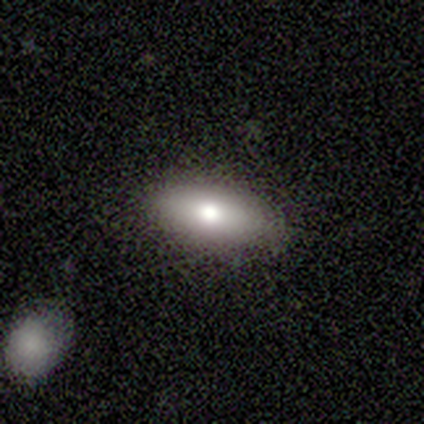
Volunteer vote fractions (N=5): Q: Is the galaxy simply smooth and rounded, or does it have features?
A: smooth — 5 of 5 (100%).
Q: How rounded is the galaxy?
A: cigar-shaped — 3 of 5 (60%).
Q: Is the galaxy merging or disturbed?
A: none — 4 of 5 (80%).